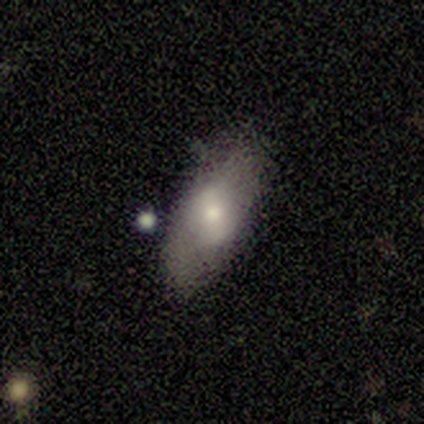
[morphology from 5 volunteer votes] This is likely a smooth galaxy (60%). How rounded: likely in between (67%). Merging: likely none (60%).